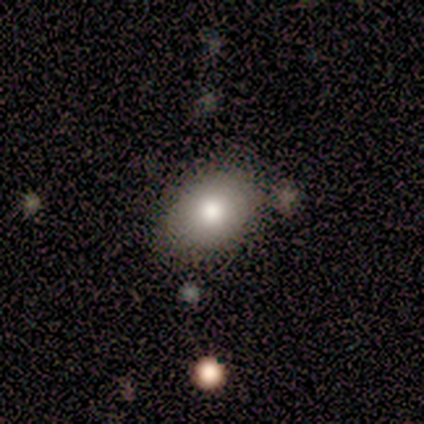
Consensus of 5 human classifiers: This is clearly a smooth galaxy (100%). How rounded: clearly in between (80%). Merging: likely none (60%).